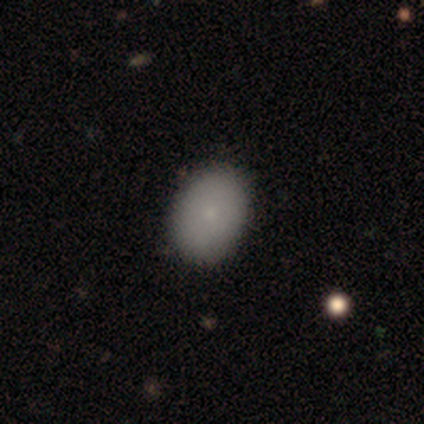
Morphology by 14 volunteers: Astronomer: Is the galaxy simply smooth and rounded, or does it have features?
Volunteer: smooth — 100%.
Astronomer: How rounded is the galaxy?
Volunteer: in between — 86%.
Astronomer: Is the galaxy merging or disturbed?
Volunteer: none — 86%.